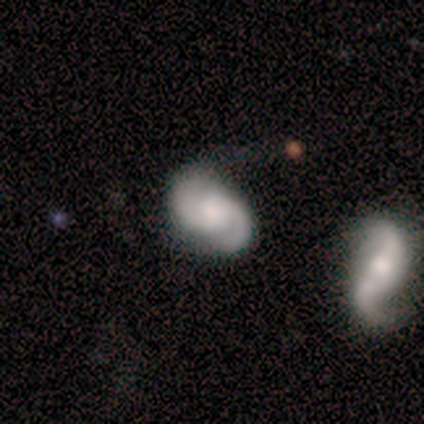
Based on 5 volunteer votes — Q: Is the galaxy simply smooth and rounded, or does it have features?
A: featured or disk — 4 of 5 (80%).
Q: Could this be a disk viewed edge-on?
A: no — 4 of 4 (100%).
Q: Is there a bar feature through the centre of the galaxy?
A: weak — 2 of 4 (50%, tied with no).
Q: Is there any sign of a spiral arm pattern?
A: yes — 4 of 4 (100%).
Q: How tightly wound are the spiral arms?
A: tight — 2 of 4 (50%, tied with medium).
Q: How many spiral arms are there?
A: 2 — 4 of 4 (100%).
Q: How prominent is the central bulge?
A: large — 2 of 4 (50%).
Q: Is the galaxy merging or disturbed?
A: none — 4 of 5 (80%).